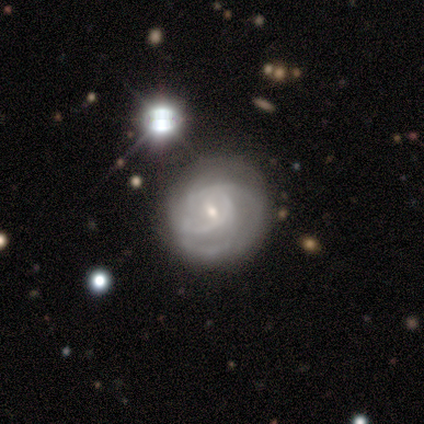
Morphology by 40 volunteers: Smooth or featured? featured or disk (80%)
Edge-on disk? no (94%)
Bar? no (53%)
Spiral arms? yes (87%)
Spiral winding? medium (42%)
Spiral arm count? 2 (38%)
Bulge size? small (77%)
Merging? none (50%)